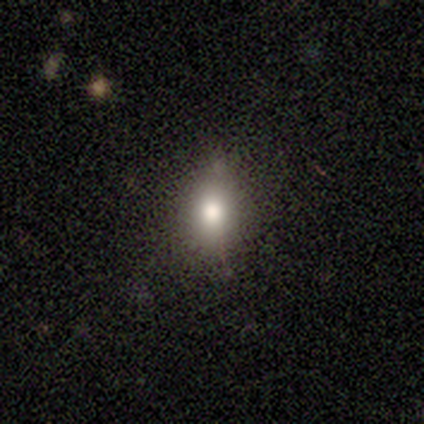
This appears to be a smooth galaxy with no disk features (80%) that is round (50%, tied with in between). Merging: none (75%).